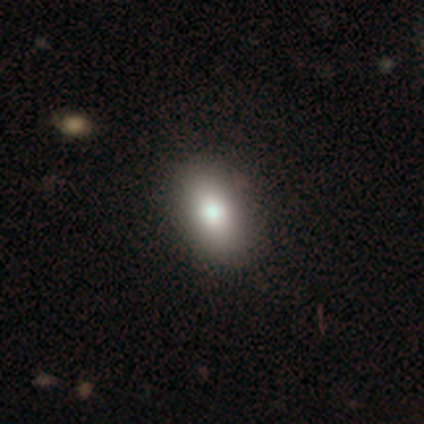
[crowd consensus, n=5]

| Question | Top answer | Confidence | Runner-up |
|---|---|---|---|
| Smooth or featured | smooth | 60% | featured or disk (40%) |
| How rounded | in between | 67% | round (33%) |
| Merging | none | 60% | minor disturbance (40%) |